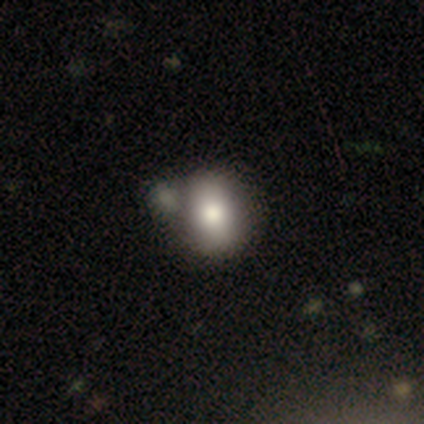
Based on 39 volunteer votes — Overall: smooth (77%). How rounded: round (53%; in between 47%). Merging: merger (51%; none 24%).